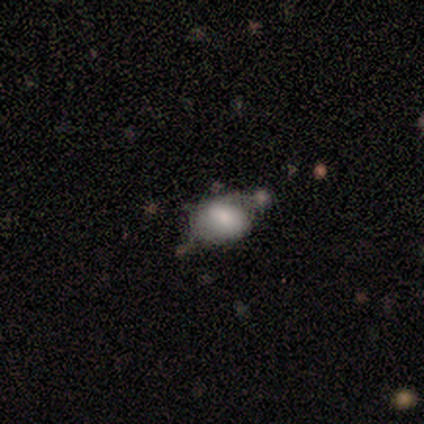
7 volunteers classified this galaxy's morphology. type=smooth (71%); roundness=in between (80%); merging=none (33%, tied with minor disturbance).